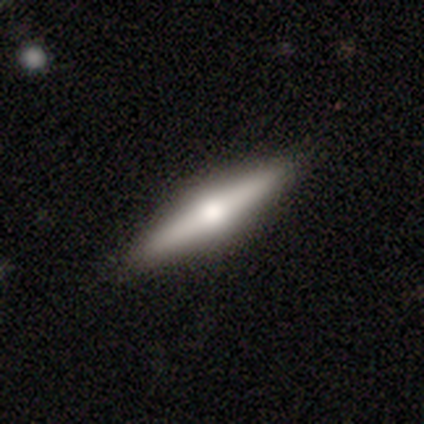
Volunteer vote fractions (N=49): Smooth or featured? 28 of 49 (57%) said featured or disk. Edge-on disk? 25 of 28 (89%) said yes. Edge-on bulge? 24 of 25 (96%) said rounded. Merging? 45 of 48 (94%) said none.